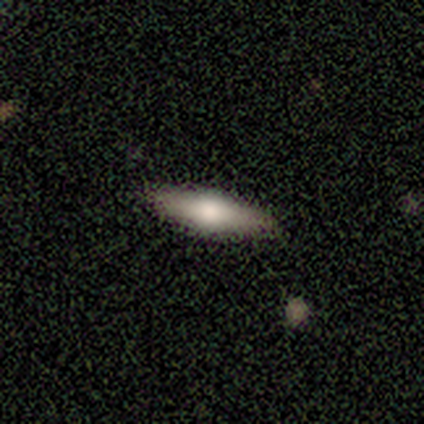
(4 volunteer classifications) Smooth or featured?
  - smooth: 50% * (tied)
  - featured or disk: 50% * (tied)
  - star or artifact: 0%
How rounded?
  - cigar-shaped: 100% *
  - round: 0%
  - in between: 0%
Merging?
  - none: 50% *
  - minor disturbance: 25%
  - merger: 25%
  - major disturbance: 0%